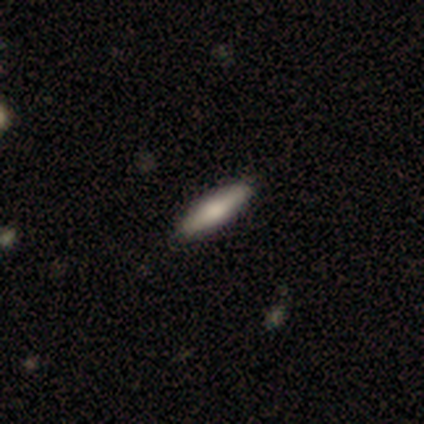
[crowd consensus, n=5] smooth 80%, featured or disk 20%, star or artifact 0%. Down the decision tree: how rounded — cigar-shaped (75%); merging — none (100%).